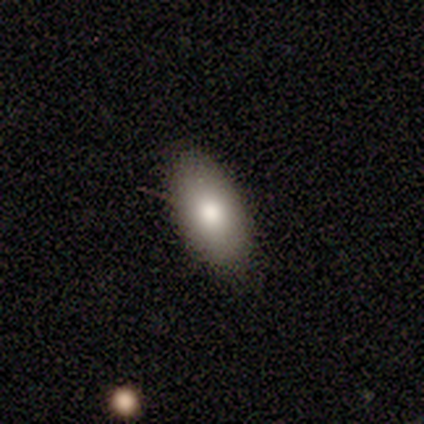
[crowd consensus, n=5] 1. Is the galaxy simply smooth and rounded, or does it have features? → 80% smooth, 20% featured or disk, 0% star or artifact.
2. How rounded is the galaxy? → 100% in between, 0% round, 0% cigar-shaped.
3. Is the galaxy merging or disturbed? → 100% none, 0% minor disturbance, 0% major disturbance, 0% merger.